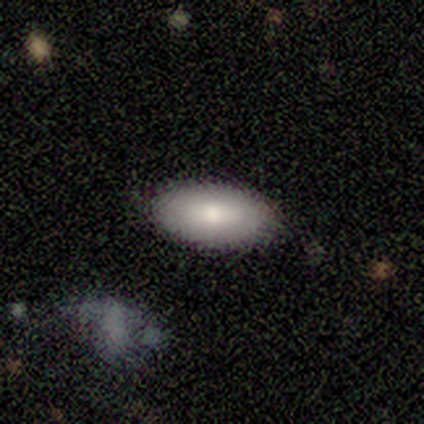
Q: Smooth or featured?
A: featured or disk (100%)
Q: Edge-on disk?
A: no (100%)
Q: Bar?
A: no (100%)
Q: Spiral arms?
A: no (100%)
Q: Bulge size?
A: dominant (100%)
Q: Merging?
A: none (100%)